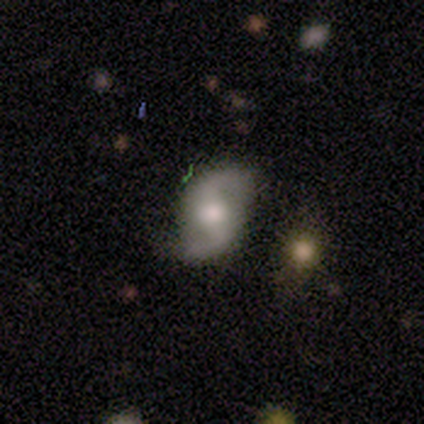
Q: Smooth or featured?
A: featured or disk (60%); runner-up: smooth (40%)
Q: Edge-on disk?
A: no (100%)
Q: Bar?
A: strong (33%); tied with: weak (33%); no (33%)
Q: Spiral arms?
A: yes (100%)
Q: Spiral winding?
A: medium (67%); runner-up: loose (33%)
Q: Spiral arm count?
A: 2 (100%)
Q: Bulge size?
A: moderate (100%)
Q: Merging?
A: none (80%); runner-up: minor disturbance (20%)